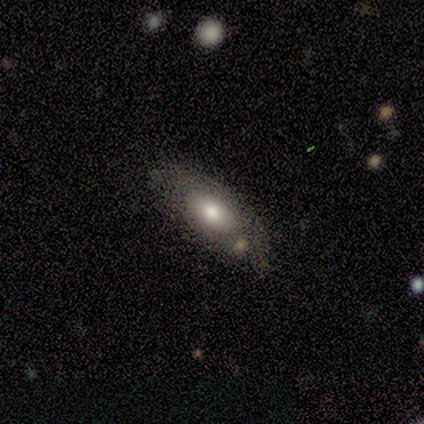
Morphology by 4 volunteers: A smooth galaxy with no disk features (100%) that is in between round and cigar-shaped (100%).

Vote fractions:
- Smooth or featured? smooth: 100% / featured or disk: 0% / star or artifact: 0%
- How rounded? in between: 100% / round: 0% / cigar-shaped: 0%
- Merging? none: 100% / minor disturbance: 0% / major disturbance: 0% / merger: 0%